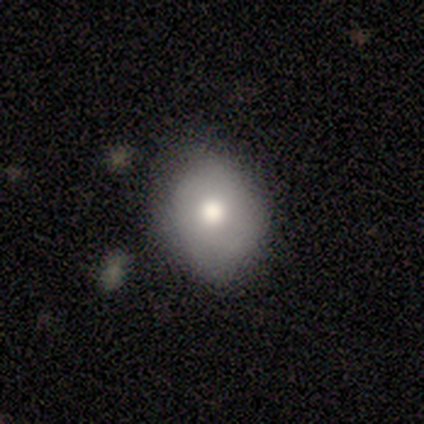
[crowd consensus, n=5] smooth-or-featured: smooth: 100% | featured or disk: 0% | star or artifact: 0%
  how-rounded: round: 60% | in between: 40% | cigar-shaped: 0%
  merging: none: 80% | minor disturbance: 20% | major disturbance: 0% | merger: 0%